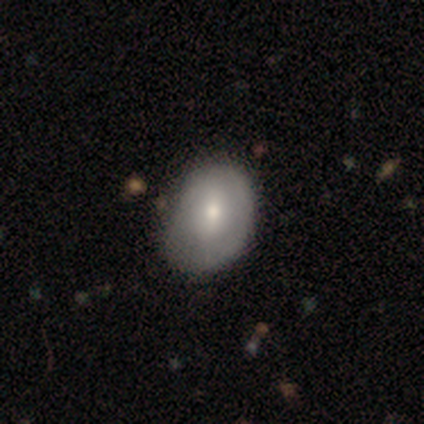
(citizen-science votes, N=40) Volunteers were most divided on "merging": minor disturbance: 31%, none: 28%, major disturbance: 8%, merger: 3%. More confident: how rounded — in between (64%); smooth or featured — smooth (55%).